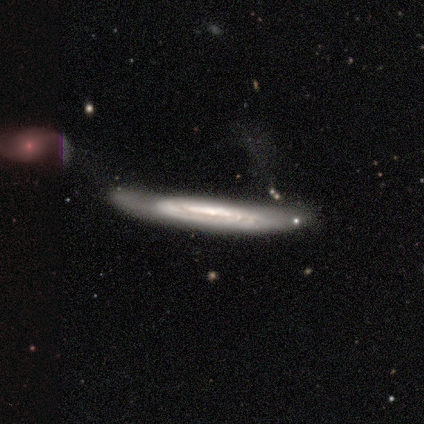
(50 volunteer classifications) smooth_or_featured: featured or disk (p=0.86) [alt: smooth p=0.14]
disk_edge_on: yes (p=0.70) [alt: no p=0.30]
edge_on_bulge: none (p=0.70) [alt: rounded p=0.27]
merging: minor disturbance (p=0.38) [alt: none p=0.26]